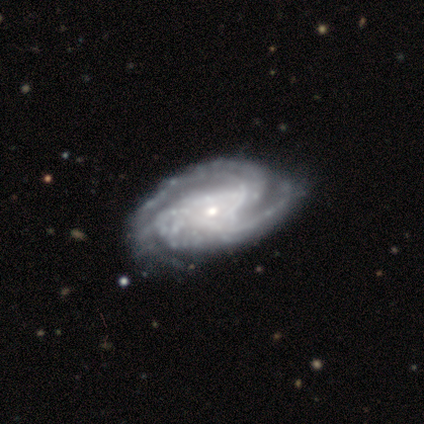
Smooth or featured? featured or disk (100%)
Edge-on disk? no (80%)
Bar? no (100%)
Spiral arms? yes (100%)
Spiral winding? tight (50%, tied with medium)
Spiral arm count? 2 (50%)
Bulge size? moderate (50%, tied with small)
Merging? none (60%)